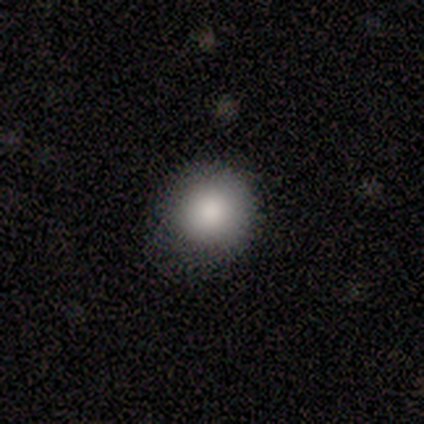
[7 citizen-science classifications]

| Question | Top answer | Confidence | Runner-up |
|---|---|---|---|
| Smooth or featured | smooth | 100% | — |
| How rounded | round | 100% | — |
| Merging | none | 57% | minor disturbance (43%) |